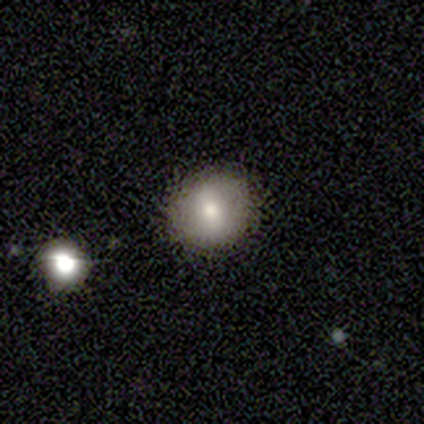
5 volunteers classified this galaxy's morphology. Smooth or featured?
  - smooth: 100% *
  - featured or disk: 0%
  - star or artifact: 0%
How rounded?
  - round: 80% *
  - in between: 20%
  - cigar-shaped: 0%
Merging?
  - none: 60% *
  - minor disturbance: 40%
  - major disturbance: 0%
  - merger: 0%